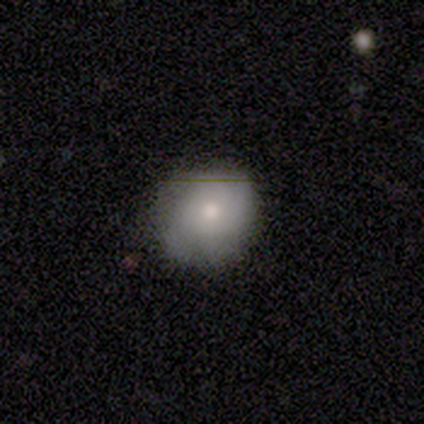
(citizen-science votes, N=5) Smooth or featured: smooth — 80% (featured or disk — 20%)
How rounded: round — 50% (tied with in between — 50%)
Merging: minor disturbance — 60% (none — 40%)